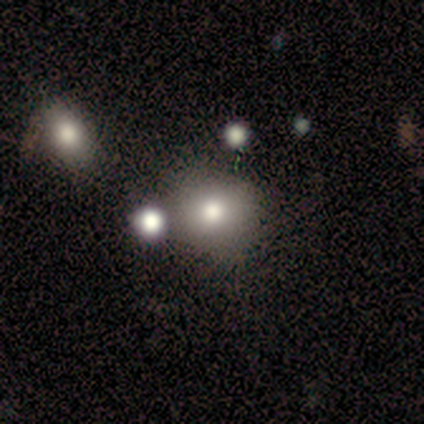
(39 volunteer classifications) smooth 72%, featured or disk 15%, star or artifact 13%. Down the decision tree: how rounded — round (82%); merging — none (68%).